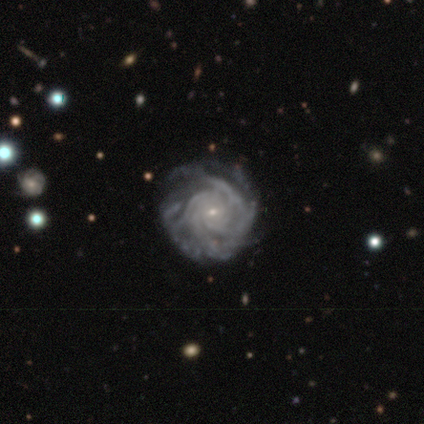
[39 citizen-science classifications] Smooth or featured?
  - featured or disk: 92% *
  - star or artifact: 5%
  - smooth: 3%
Edge-on disk?
  - no: 100% *
  - yes: 0%
Bar?
  - no: 69% *
  - weak: 31%
  - strong: 0%
Spiral arms?
  - yes: 100% *
  - no: 0%
Spiral winding?
  - tight: 78% *
  - medium: 17%
  - loose: 6%
Spiral arm count?
  - can't tell: 53% *
  - 4: 19%
  - more than 4: 19%
  - 2: 6%
  - 3: 3%
  - 1: 0%
Bulge size?
  - small: 92% *
  - moderate: 8%
  - dominant: 0%
  - large: 0%
  - none: 0%
Merging?
  - none: 57% *
  - minor disturbance: 27%
  - major disturbance: 16%
  - merger: 0%